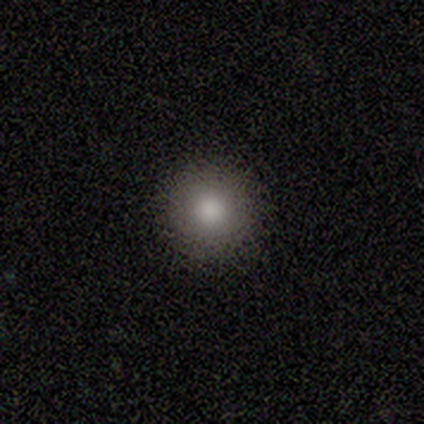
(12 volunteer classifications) smooth 92%, star or artifact 8%, featured or disk 0%. Down the decision tree: how rounded — round (100%); merging — none (91%).